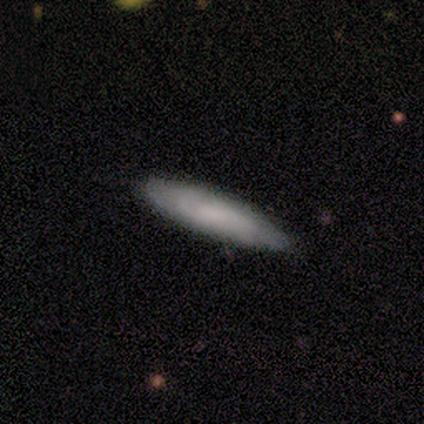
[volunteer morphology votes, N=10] Smooth or featured: smooth — 70% (star or artifact — 20%)
How rounded: cigar-shaped — 86% (in between — 14%)
Merging: none — 100%